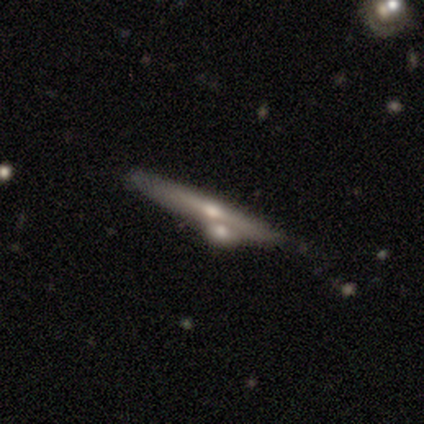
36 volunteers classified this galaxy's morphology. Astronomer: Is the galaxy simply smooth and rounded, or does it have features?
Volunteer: featured or disk — 72%.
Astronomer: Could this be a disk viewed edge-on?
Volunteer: yes — 96%.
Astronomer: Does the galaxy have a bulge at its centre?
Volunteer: rounded — 76%.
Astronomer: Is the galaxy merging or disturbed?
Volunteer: none — 42%, tied with merger at 42%.